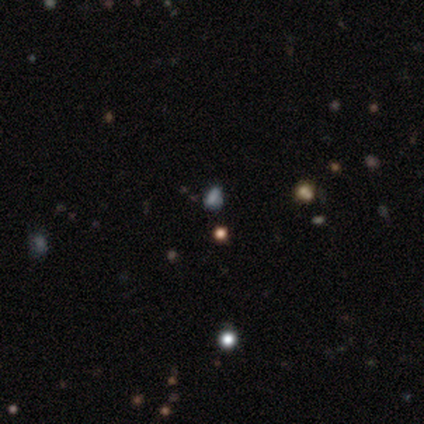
Q: Smooth or featured?
A: star or artifact (100%)